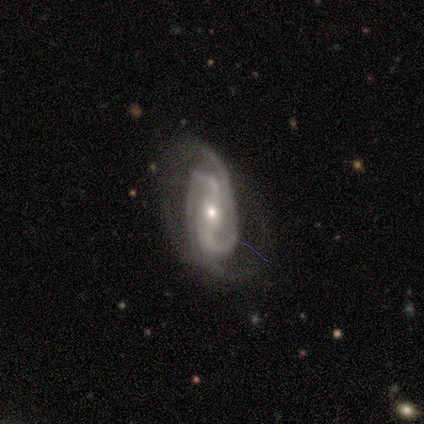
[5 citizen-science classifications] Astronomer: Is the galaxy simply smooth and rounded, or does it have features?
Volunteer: featured or disk — 100%.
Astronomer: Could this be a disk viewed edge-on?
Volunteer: no — 100%.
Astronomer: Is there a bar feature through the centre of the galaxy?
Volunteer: strong — 40%, tied with no at 40%.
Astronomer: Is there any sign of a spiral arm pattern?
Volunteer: yes — 100%.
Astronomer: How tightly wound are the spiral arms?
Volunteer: medium — 60% (runner-up: tight, 40%).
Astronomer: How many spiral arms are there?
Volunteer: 2 — 40%, tied with 4 at 40%.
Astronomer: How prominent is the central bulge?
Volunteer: small — 60% (runner-up: moderate, 40%).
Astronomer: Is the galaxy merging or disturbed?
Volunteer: none — 60%.